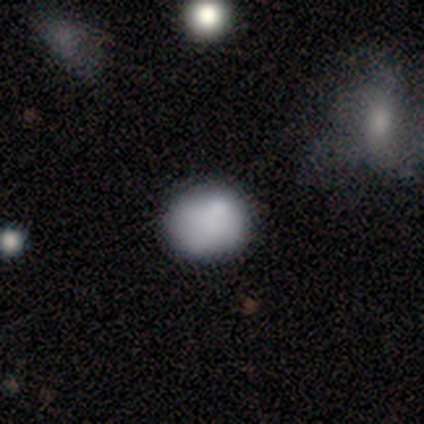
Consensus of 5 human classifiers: Smooth or featured? smooth (60%)
How rounded? round (67%)
Merging? none (80%)